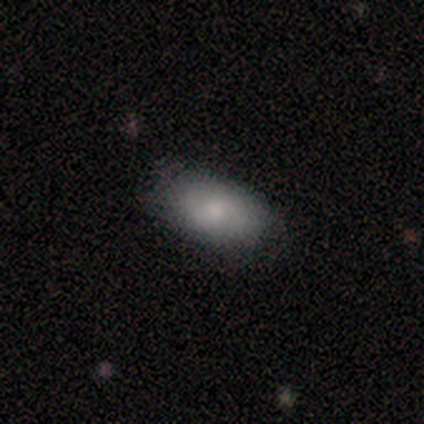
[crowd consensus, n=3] Q: Smooth or featured?
A: smooth (67%); runner-up: featured or disk (33%)
Q: How rounded?
A: in between (100%)
Q: Merging?
A: none (100%)